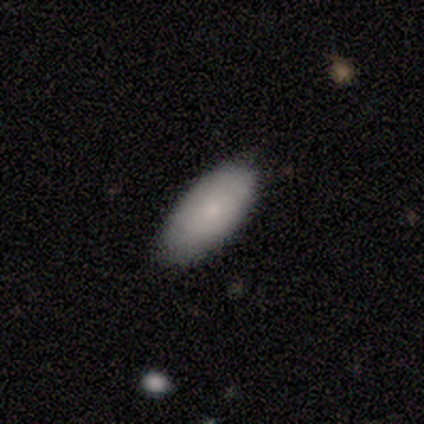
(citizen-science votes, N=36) A smooth galaxy with no disk features (81%) that is in between round and cigar-shaped (90%). Merging: none (88%).